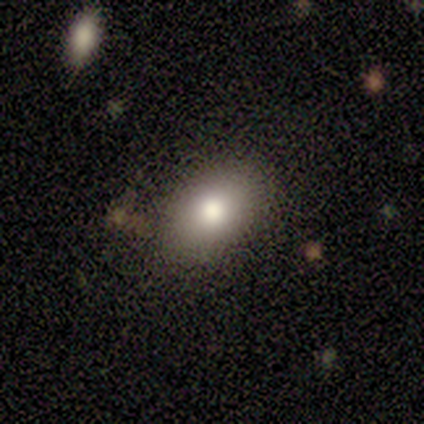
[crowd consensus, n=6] A smooth galaxy with no disk features (83%) that is in between round and cigar-shaped (100%). Merging: none (83%).